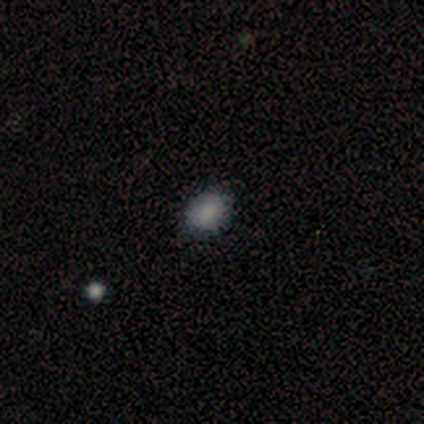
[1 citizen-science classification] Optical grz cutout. It shows a smooth galaxy with no disk features (100%) that is round (100%). Merging: minor disturbance (100%).